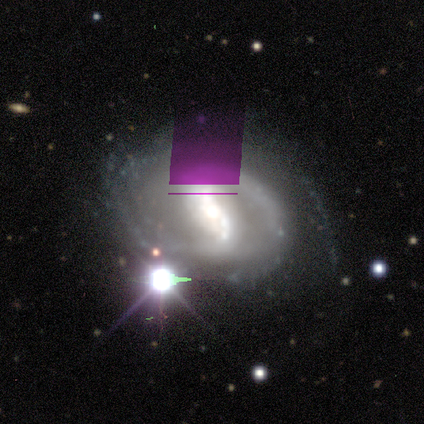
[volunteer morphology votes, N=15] Smooth or featured?
  - featured or disk: 87% *
  - star or artifact: 13%
  - smooth: 0%
Edge-on disk?
  - no: 100% *
  - yes: 0%
Bar?
  - strong: 69% *
  - weak: 31%
  - no: 0%
Spiral arms?
  - yes: 92% *
  - no: 8%
Spiral winding?
  - medium: 58% *
  - tight: 33%
  - loose: 8%
Spiral arm count?
  - 2: 58% *
  - can't tell: 33%
  - 3: 8%
  - 1: 0%
  - 4: 0%
  - more than 4: 0%
Bulge size?
  - large: 46% *
  - moderate: 38%
  - small: 15%
  - dominant: 0%
  - none: 0%
Merging?
  - none: 85% *
  - major disturbance: 15%
  - minor disturbance: 0%
  - merger: 0%